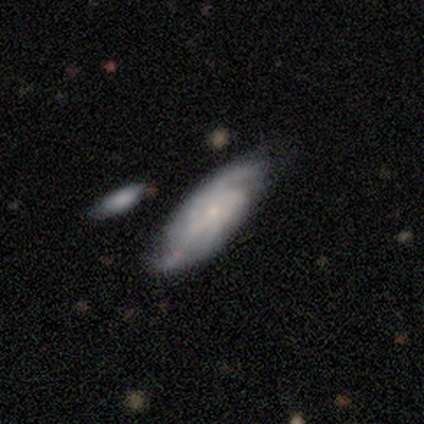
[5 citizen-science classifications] A smooth galaxy with no disk features (60%) that is in between round and cigar-shaped (67%). Merging: none (60%).